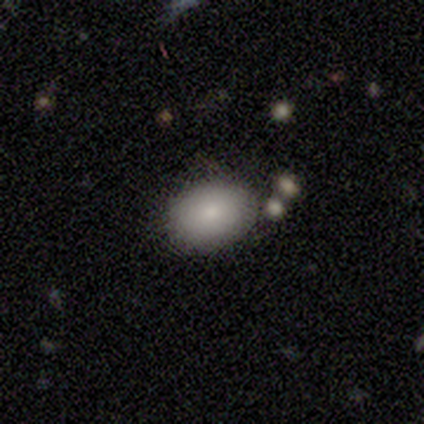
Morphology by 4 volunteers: smooth_or_featured: smooth (p=1.00)
how_rounded: in between (p=1.00)
merging: none (p=1.00)